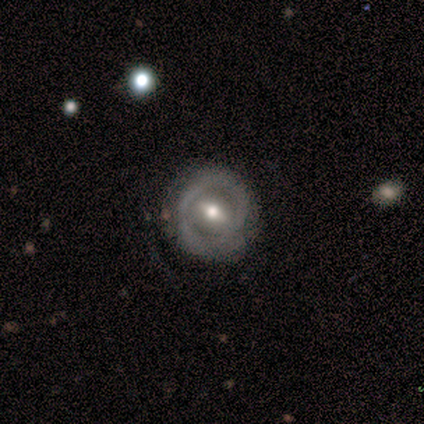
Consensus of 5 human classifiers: Morphology: type=featured or disk (80%); edge-on=no (100%); bar=weak (50%); spiral arms=no (75%); bulge=moderate (100%); merging=none (50%, tied with minor disturbance).